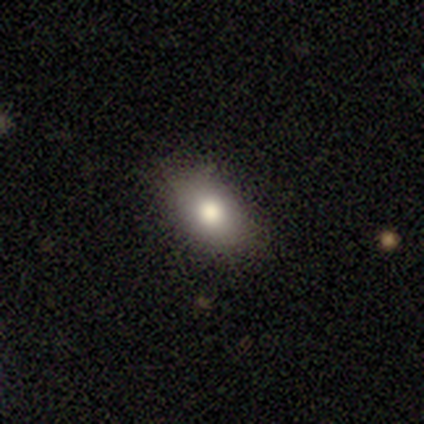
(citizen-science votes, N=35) A smooth galaxy with no disk features (69%) that is in between round and cigar-shaped (83%). Merging: none (90%).